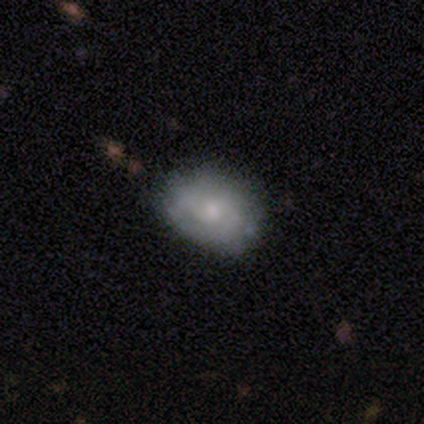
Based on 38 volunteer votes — This is possibly a smooth galaxy (47%). How rounded: likely in between (67%). Merging: likely none (76%).